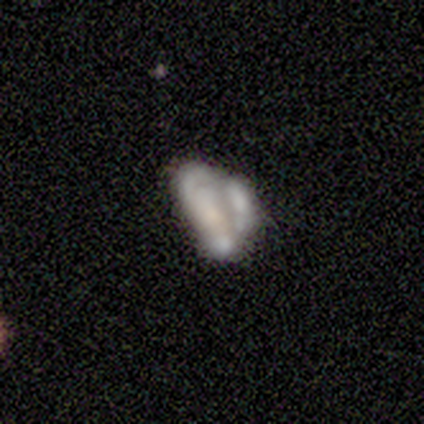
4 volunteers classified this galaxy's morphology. Smooth or featured? smooth (50%, tied with featured or disk)
How rounded? in between (100%)
Merging? merger (50%)